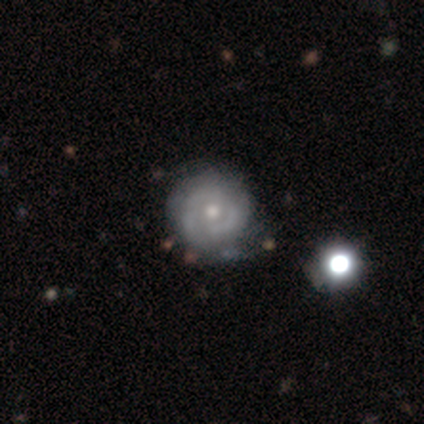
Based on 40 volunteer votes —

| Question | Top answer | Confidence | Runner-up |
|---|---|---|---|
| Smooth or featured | featured or disk | 75% | smooth (20%) |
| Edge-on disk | no | 93% | yes (7%) |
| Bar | no | 79% | weak (21%) |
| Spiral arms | yes | 82% | no (18%) |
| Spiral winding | tight | 65% | medium (26%) |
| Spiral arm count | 2 | 57% | can't tell (26%) |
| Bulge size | moderate | 61% | small (32%) |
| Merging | minor disturbance | 34% | none (29%) |